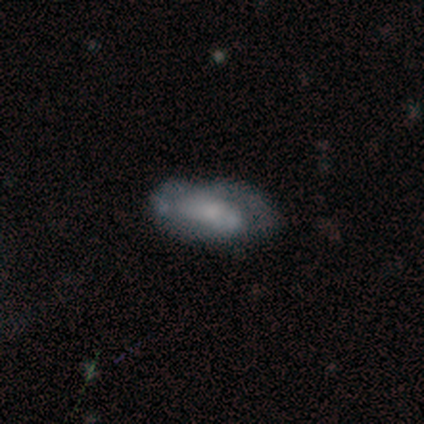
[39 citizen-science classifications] smooth 41% (tied), featured or disk 41% (tied), star or artifact 18%. Down the decision tree: how rounded — in between (88%); merging — none (47%).